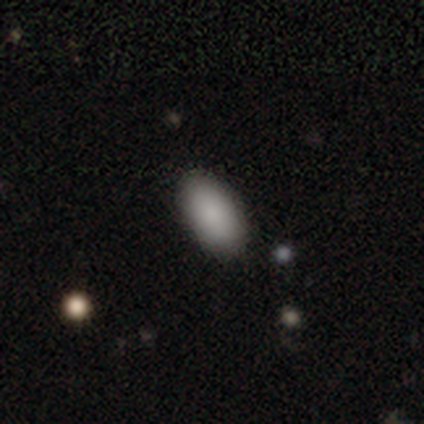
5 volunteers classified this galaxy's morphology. Smooth or featured? smooth (100%)
How rounded? in between (100%)
Merging? none (100%)